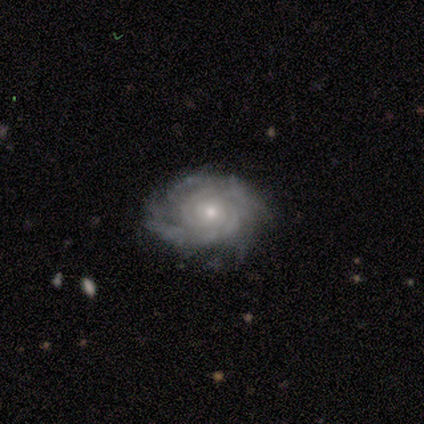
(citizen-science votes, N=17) featured or disk 88%, smooth 6%, star or artifact 6%. Down the decision tree: edge-on disk — no (100%); bar — no (87%); spiral arms — yes (100%); spiral arm count — 2 (47%); spiral winding — tight (87%); bulge size — small (53%); merging — none (75%).